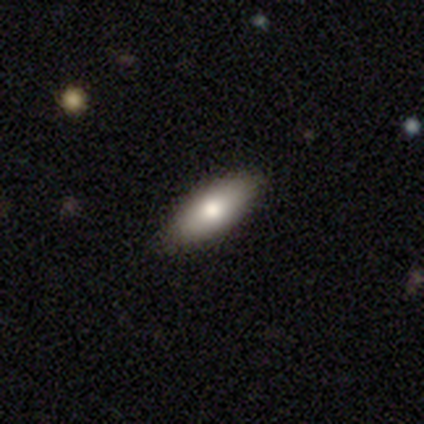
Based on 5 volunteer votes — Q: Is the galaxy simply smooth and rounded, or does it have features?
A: smooth — 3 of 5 (60%).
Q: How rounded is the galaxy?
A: in between — 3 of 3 (100%).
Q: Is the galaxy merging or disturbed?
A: none — 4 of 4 (100%).